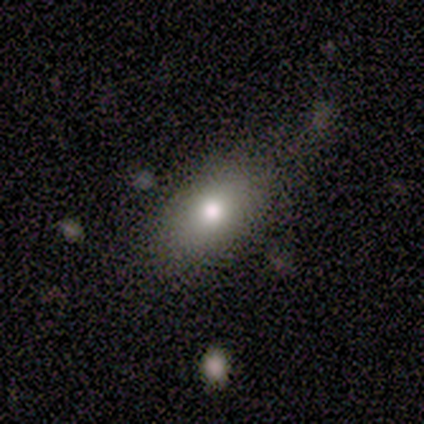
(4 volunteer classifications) Smooth or featured? 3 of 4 (75%) said smooth. How rounded? 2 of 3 (67%) said in between. Merging? 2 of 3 (67%) said major disturbance.